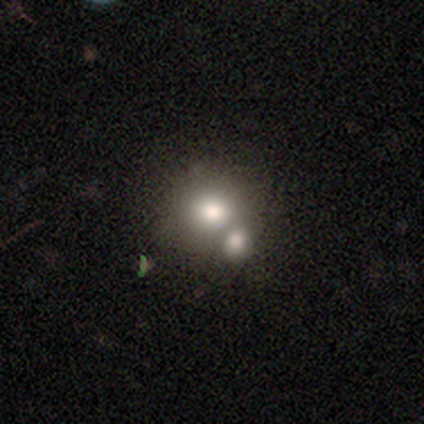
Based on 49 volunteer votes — Q: Smooth or featured?
A: smooth (61%); runner-up: featured or disk (22%)
Q: How rounded?
A: round (93%); runner-up: in between (7%)
Q: Merging?
A: merger (54%); runner-up: none (32%)